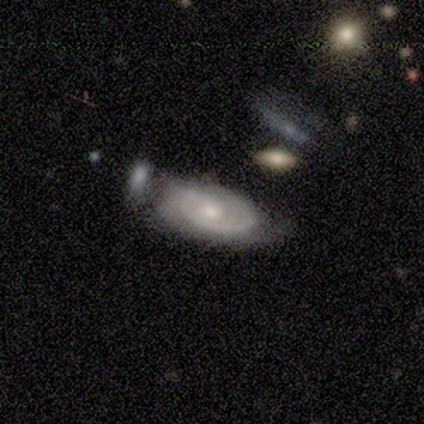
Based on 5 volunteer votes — Smooth or featured? featured or disk (100%)
Edge-on disk? no (100%)
Bar? no (60%)
Spiral arms? yes (80%)
Spiral winding? tight (75%)
Spiral arm count? 2 (50%)
Bulge size? moderate (40%, tied with small)
Merging? none (60%)